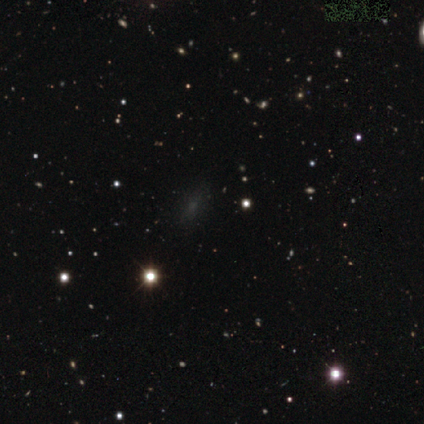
Morphology: type=smooth (60%); roundness=in between (67%); merging=none (75%).